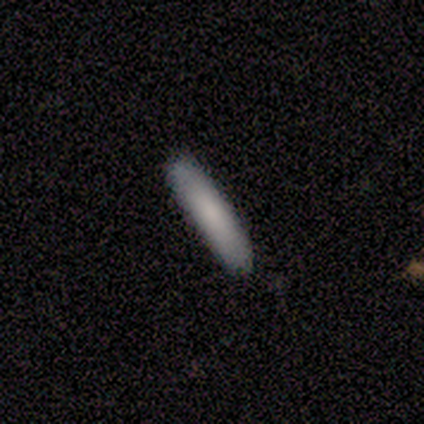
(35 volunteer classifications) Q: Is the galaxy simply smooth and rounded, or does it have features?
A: smooth — 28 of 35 (80%).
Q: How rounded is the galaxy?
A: cigar-shaped — 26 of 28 (93%).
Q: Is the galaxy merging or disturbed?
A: none — 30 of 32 (94%).